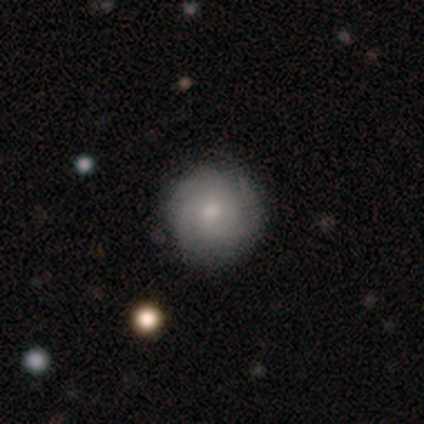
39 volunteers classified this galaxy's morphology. smooth_or_featured: featured or disk (p=0.56) [alt: smooth p=0.41]
disk_edge_on: no (p=1.00)
bar: no (p=0.82) [alt: weak p=0.18]
has_spiral_arms: yes (p=0.82) [alt: no p=0.18]
spiral_winding: tight (p=0.83) [alt: loose p=0.11]
spiral_arm_count: 3 (p=0.44) [alt: can't tell p=0.28]
bulge_size: moderate (p=0.50) [alt: small p=0.45]
merging: none (p=0.84) [alt: minor disturbance p=0.11]